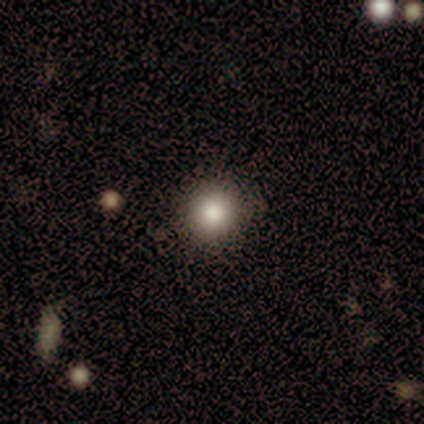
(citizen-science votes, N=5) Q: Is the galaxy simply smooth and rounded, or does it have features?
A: smooth — 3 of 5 (60%).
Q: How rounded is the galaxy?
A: round — 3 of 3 (100%).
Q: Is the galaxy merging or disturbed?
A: none — 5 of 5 (100%).